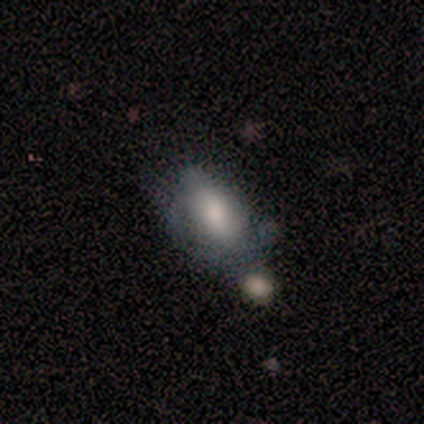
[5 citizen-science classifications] smooth_or_featured: smooth (p=0.40) [tied with: featured or disk p=0.40]
how_rounded: in between (p=1.00)
merging: none (p=0.50) [alt: minor disturbance p=0.25]